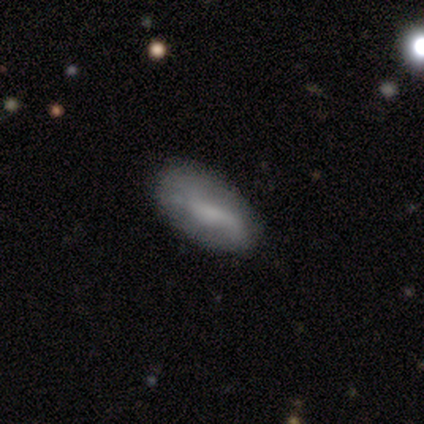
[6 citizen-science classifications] This appears to be a smooth galaxy with no disk features (67%) that is in between round and cigar-shaped (100%). Merging: none (50%).